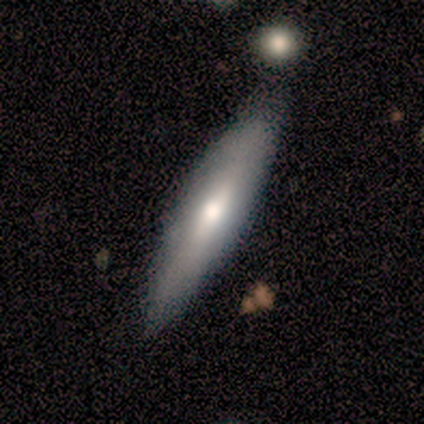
Volunteers were most divided on "smooth or featured": smooth: 67%, featured or disk: 33%, star or artifact: 0%. More confident: merging — none (83%); how rounded — cigar-shaped (75%).